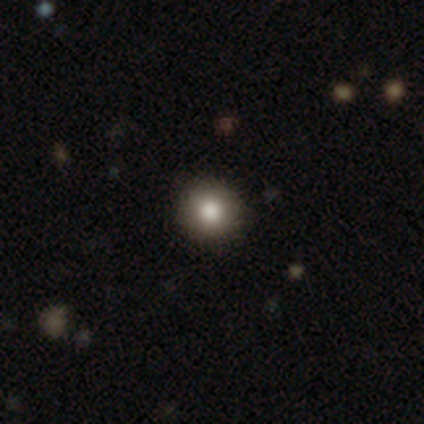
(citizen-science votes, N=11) Smooth or featured? 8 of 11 (73%) said smooth. How rounded? 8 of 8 (100%) said round. Merging? 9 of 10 (90%) said none.